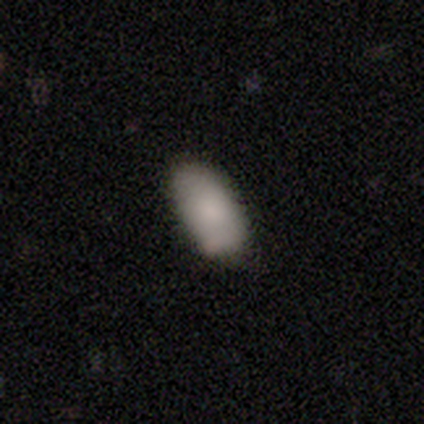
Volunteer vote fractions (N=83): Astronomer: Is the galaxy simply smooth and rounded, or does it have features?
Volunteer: smooth — 86%.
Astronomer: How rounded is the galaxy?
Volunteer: in between — 93%.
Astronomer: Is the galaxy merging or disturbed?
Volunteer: none — 76%.